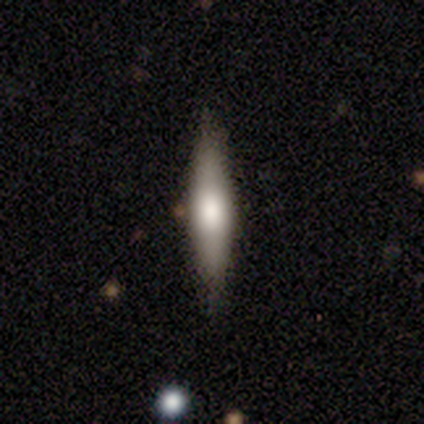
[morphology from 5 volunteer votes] A smooth galaxy with no disk features (40%, tied with featured or disk) that is cigar-shaped (100%). Merging: none (75%).